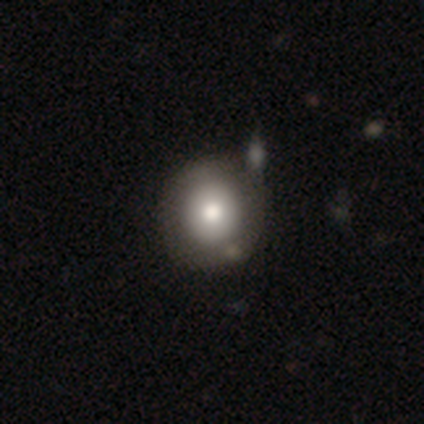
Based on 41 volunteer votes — smooth_or_featured: smooth (p=0.68) [alt: featured or disk p=0.22]
how_rounded: round (p=0.96) [alt: in between p=0.04]
merging: none (p=0.57) [alt: minor disturbance p=0.14]